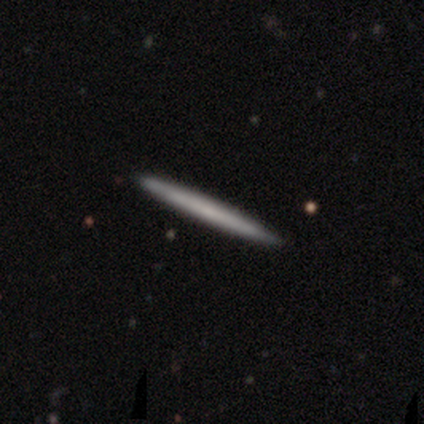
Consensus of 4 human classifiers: Smooth or featured?
  - featured or disk: 75% *
  - smooth: 25%
  - star or artifact: 0%
Edge-on disk?
  - yes: 100% *
  - no: 0%
Edge-on bulge?
  - none: 67% *
  - rounded: 33%
  - boxy: 0%
Merging?
  - none: 100% *
  - minor disturbance: 0%
  - major disturbance: 0%
  - merger: 0%